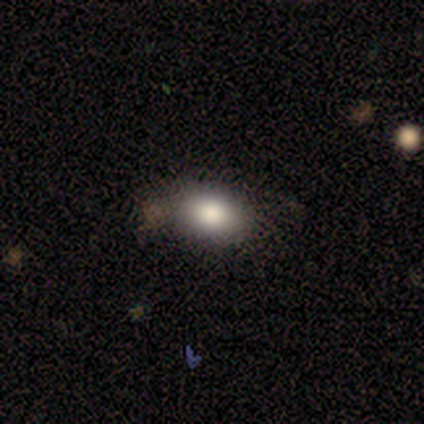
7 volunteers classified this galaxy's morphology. Overall: smooth (86%). How rounded: in between (100%). Merging: minor disturbance (57%; none 43%).